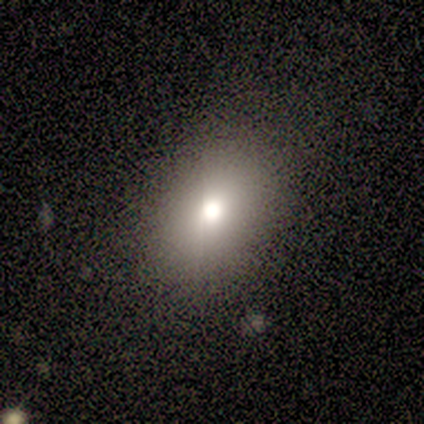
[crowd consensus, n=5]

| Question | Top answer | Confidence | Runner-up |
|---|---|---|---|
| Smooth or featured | smooth | 60% | featured or disk (40%) |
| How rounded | round | 67% | in between (33%) |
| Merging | none | 60% | minor disturbance (40%) |